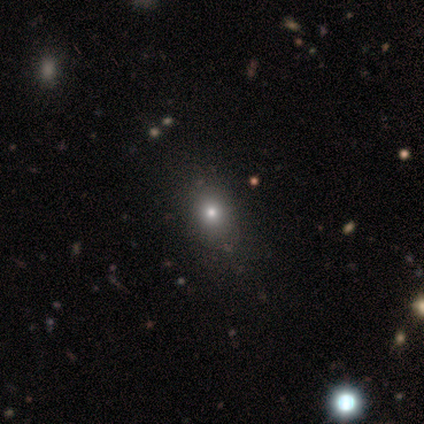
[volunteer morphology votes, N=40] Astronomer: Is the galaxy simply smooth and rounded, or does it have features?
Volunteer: smooth — 62%.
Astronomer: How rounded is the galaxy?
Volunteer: in between — 64%.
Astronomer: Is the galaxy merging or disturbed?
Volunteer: none — 67%.